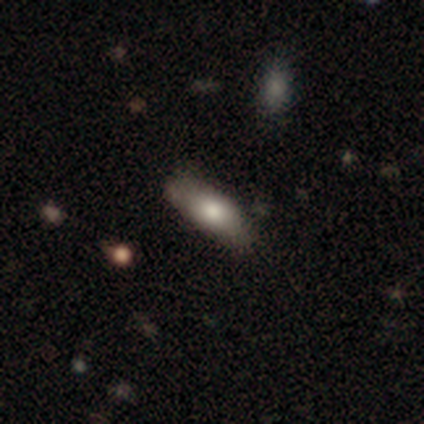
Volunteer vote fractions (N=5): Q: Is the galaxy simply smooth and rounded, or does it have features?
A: smooth — 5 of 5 (100%).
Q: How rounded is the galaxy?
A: cigar-shaped — 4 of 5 (80%).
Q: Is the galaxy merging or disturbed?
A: none — 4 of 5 (80%).